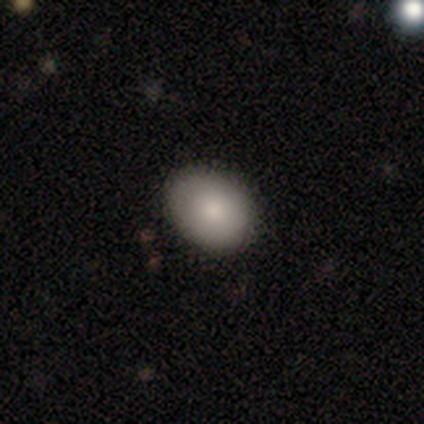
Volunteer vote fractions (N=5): Overall: smooth (100%). How rounded: in between (80%). Merging: none (100%).